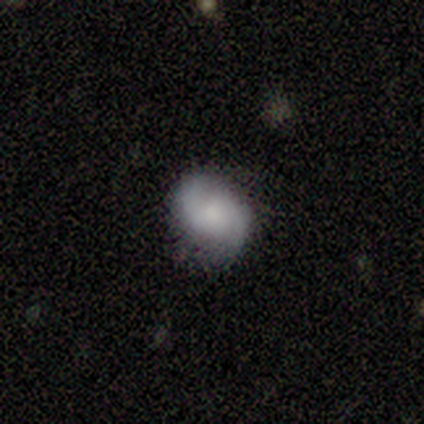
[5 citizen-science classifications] Overall: featured or disk (60%; smooth 20%). Edge-on disk: no (100%). Bar: no (100%). Spiral arms: yes (100%). Spiral arm count: 2 (100%). Spiral winding: tight (67%; loose 33%). Bulge size: moderate (67%; none 33%). Merging: none (100%).